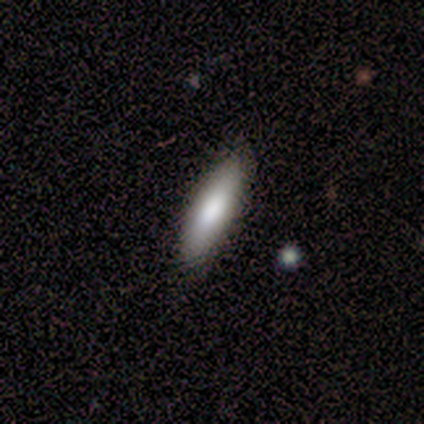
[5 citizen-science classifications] Smooth or featured? smooth (80%)
How rounded? cigar-shaped (75%)
Merging? none (100%)